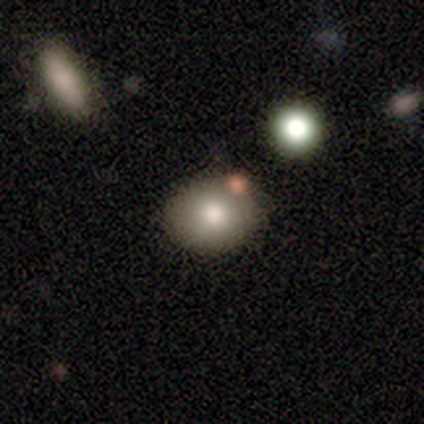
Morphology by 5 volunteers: This appears to be a smooth galaxy with no disk features (100%) that is in between round and cigar-shaped (60%). Merging: none (100%).